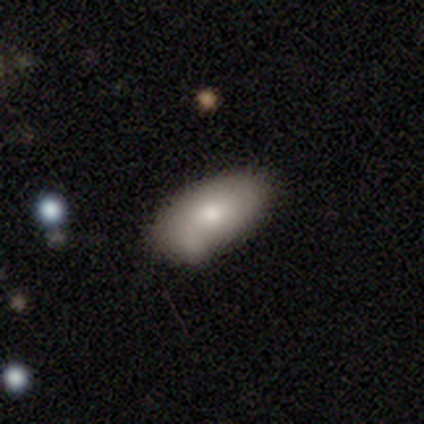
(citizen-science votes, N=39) Overall: smooth (85%). How rounded: in between (97%). Merging: none (47%, tied with minor disturbance).